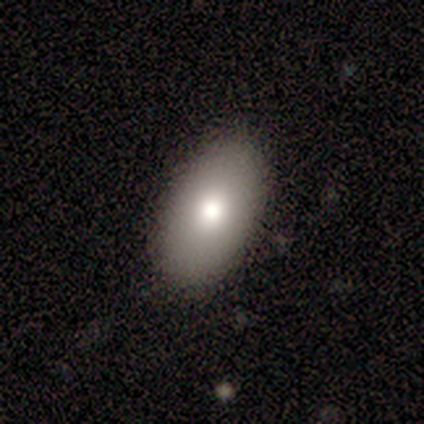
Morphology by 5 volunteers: A smooth galaxy with no disk features (80%) that is in between round and cigar-shaped (100%).

Vote fractions:
- Smooth or featured? smooth: 80% / featured or disk: 20% / star or artifact: 0%
- How rounded? in between: 100% / round: 0% / cigar-shaped: 0%
- Merging? none: 100% / minor disturbance: 0% / major disturbance: 0% / merger: 0%